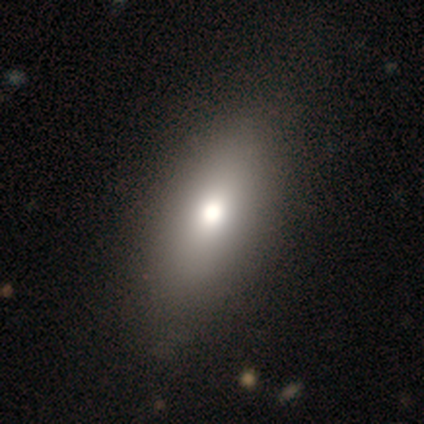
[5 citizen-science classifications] smooth 60%, featured or disk 20%, star or artifact 20%. Down the decision tree: how rounded — cigar-shaped (67%); merging — none (100%).